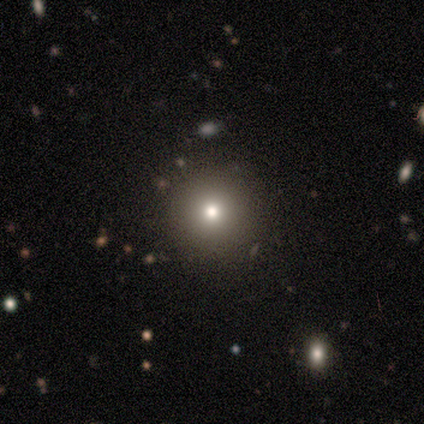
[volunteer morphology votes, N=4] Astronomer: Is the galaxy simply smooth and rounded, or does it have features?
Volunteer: smooth — 50%.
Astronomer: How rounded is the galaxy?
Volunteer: round — 100%.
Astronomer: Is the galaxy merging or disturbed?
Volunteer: none — 67%.